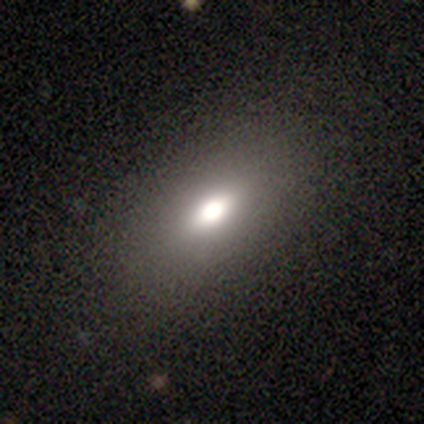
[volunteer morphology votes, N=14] smooth 71%, featured or disk 29%, star or artifact 0%. Down the decision tree: how rounded — in between (100%); merging — none (64%).